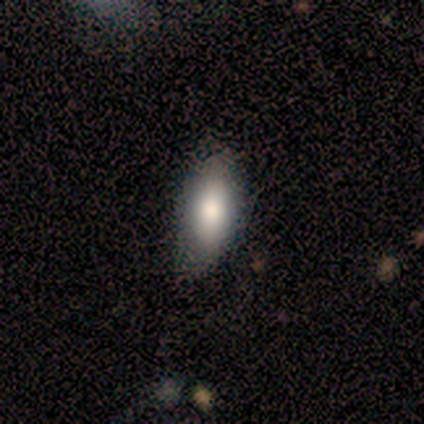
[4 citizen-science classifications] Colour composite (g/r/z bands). It shows a smooth galaxy with no disk features (50%, tied with featured or disk) that is in between round and cigar-shaped (100%). Merging: none (75%).